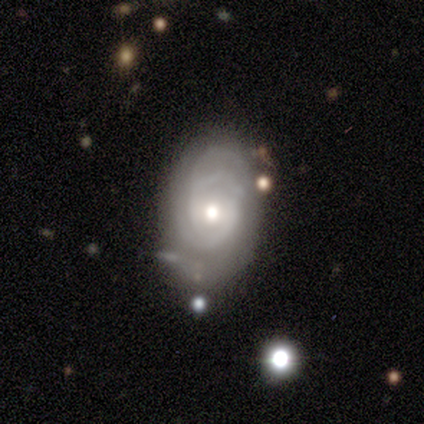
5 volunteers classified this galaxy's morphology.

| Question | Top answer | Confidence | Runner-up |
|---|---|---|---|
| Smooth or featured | featured or disk | 80% | smooth (20%) |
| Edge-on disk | no | 100% | — |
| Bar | no | 50% | strong (25%) |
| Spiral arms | yes | 100% | — |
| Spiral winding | tight | 50% | tied: medium (50%) |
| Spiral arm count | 3 | 50% | tied: can't tell (50%) |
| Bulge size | moderate | 75% | large (25%) |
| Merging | none | 40% | tied: minor disturbance (40%) |